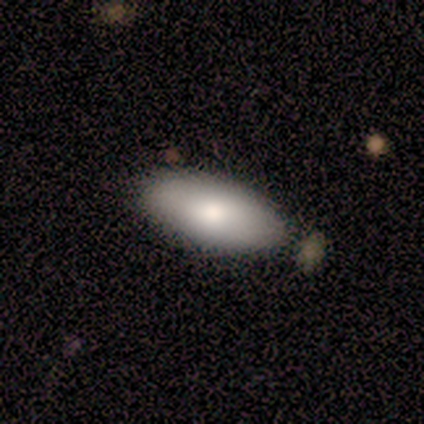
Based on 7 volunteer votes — Smooth or featured? smooth (86%)
How rounded? in between (100%)
Merging? none (86%)